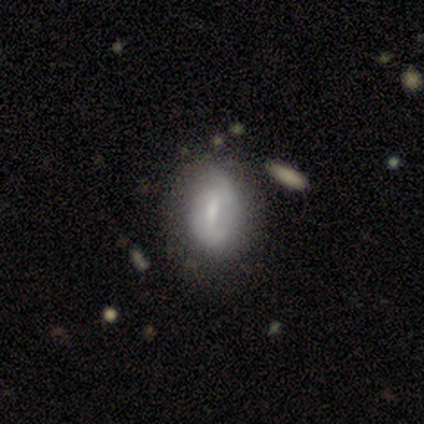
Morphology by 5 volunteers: Q: Smooth or featured?
A: smooth (60%); runner-up: featured or disk (40%)
Q: How rounded?
A: in between (100%)
Q: Merging?
A: none (80%); runner-up: minor disturbance (20%)